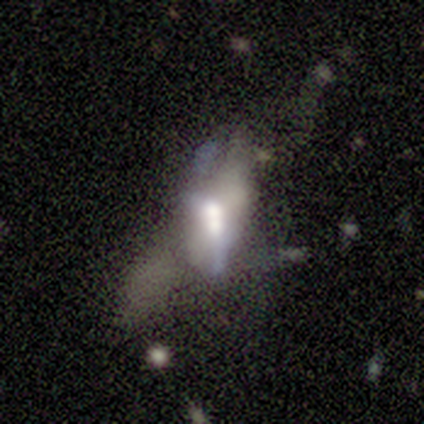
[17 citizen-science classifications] Smooth or featured: featured or disk — 71% (smooth — 24%)
Edge-on disk: no — 75% (yes — 25%)
Bar: no — 67% (strong — 22%)
Spiral arms: no — 78% (yes — 22%)
Bulge size: moderate — 44% (large — 33%)
Merging: merger — 50% (major disturbance — 31%)